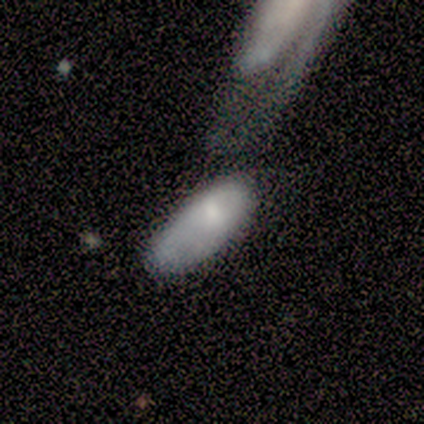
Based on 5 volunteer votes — smooth 100%, featured or disk 0%, star or artifact 0%. Down the decision tree: how rounded — in between (80%); merging — none (40%, tied with merger).